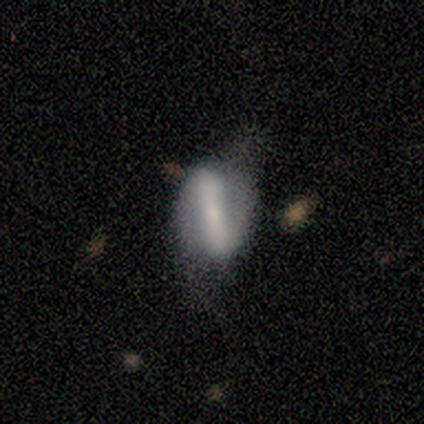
smooth-or-featured: featured or disk: 60% | smooth: 40% | star or artifact: 0%
  disk-edge-on: no: 100% | yes: 0%
    bar: strong: 100% | weak: 0% | no: 0%
    has-spiral-arms: no: 100% | yes: 0%
    bulge-size: moderate: 67% | small: 33% | dominant: 0% | large: 0% | none: 0%
  merging: minor disturbance: 40% (tied) | major disturbance: 40% (tied) | none: 20% | merger: 0%